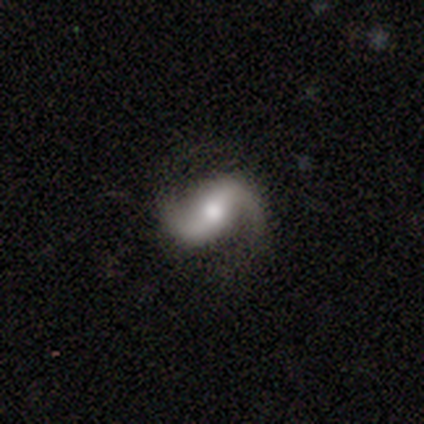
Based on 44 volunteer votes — Smooth or featured? 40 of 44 (91%) said featured or disk. Edge-on disk? 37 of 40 (92%) said no. Bar? 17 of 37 (46%) said strong. Spiral arms? 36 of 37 (97%) said yes. Spiral winding? 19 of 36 (53%) said loose. Spiral arm count? 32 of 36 (89%) said 2. Bulge size? 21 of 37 (57%) said moderate. Merging? 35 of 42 (83%) said none.